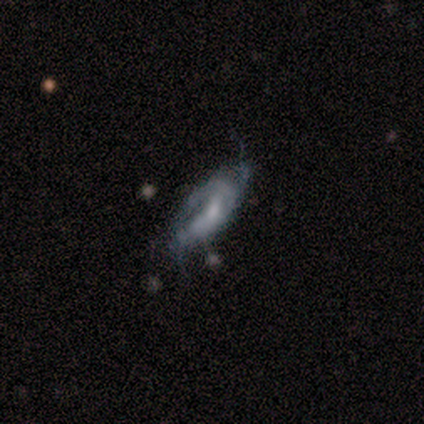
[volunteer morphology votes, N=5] This is clearly a featured or disk galaxy (100%). It is clearly not viewed edge-on (100%). Bar: likely no (60%). Spiral arm pattern: clearly yes (80%). Spiral arm count: clearly can't tell (100%). Spiral winding: possibly medium (50%). Central bulge: marginally moderate (40%, tied with small). Merging: likely none (60%).